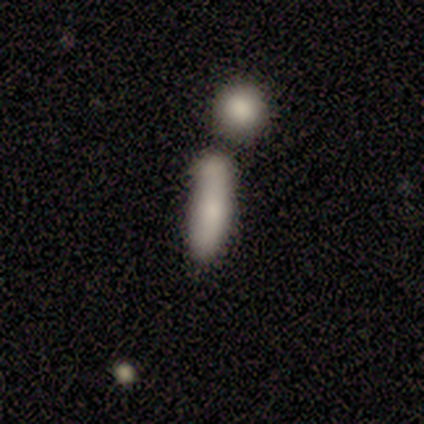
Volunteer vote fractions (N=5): Q: Smooth or featured?
A: smooth (100%)
Q: How rounded?
A: in between (60%); runner-up: cigar-shaped (40%)
Q: Merging?
A: merger (60%); runner-up: none (20%)